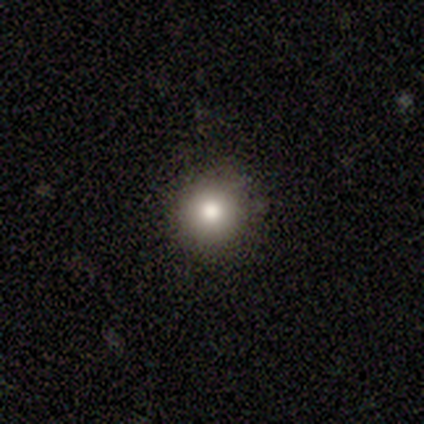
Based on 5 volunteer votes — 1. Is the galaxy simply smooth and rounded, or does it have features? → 100% smooth, 0% featured or disk, 0% star or artifact.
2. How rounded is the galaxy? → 100% round, 0% in between, 0% cigar-shaped.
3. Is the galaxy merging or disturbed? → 80% none, 20% minor disturbance, 0% major disturbance, 0% merger.